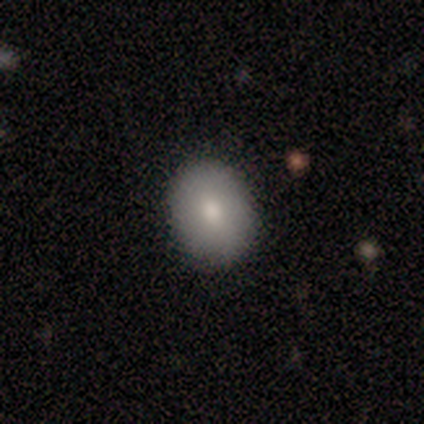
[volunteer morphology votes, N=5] Smooth or featured? 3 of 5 (60%) said smooth. How rounded? 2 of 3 (67%) said in between. Merging? 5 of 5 (100%) said none.